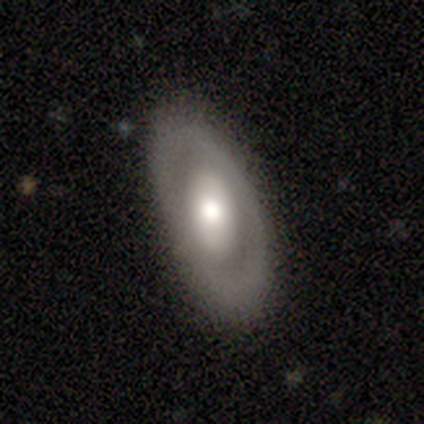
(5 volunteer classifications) A featured or disk galaxy (100%) viewed edge-on (60%) with a rounded central bulge (100%). Merging: none (80%).